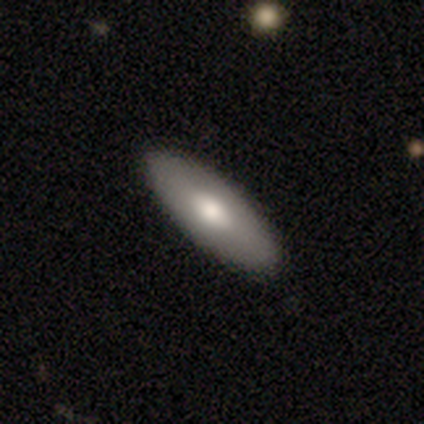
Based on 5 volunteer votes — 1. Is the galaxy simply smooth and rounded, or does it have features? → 40% smooth (tied), 40% featured or disk (tied), 20% star or artifact.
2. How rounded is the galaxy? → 50% in between (tied), 50% cigar-shaped (tied), 0% round.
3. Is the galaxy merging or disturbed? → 75% none, 25% minor disturbance, 0% major disturbance, 0% merger.